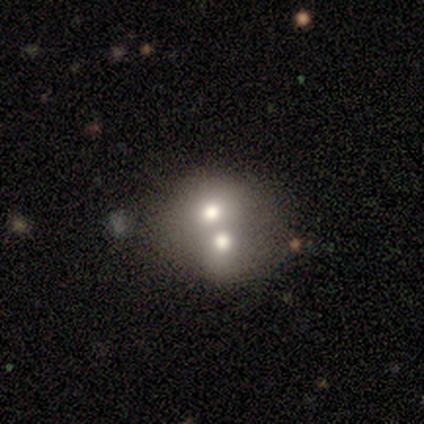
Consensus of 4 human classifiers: smooth-or-featured: featured or disk: 50% | smooth: 25% | star or artifact: 25%
  disk-edge-on: no: 100% | yes: 0%
    bar: no: 100% | strong: 0% | weak: 0%
    has-spiral-arms: no: 100% | yes: 0%
    bulge-size: large: 50% (tied) | moderate: 50% (tied) | dominant: 0% | small: 0% | none: 0%
  merging: merger: 100% | none: 0% | minor disturbance: 0% | major disturbance: 0%